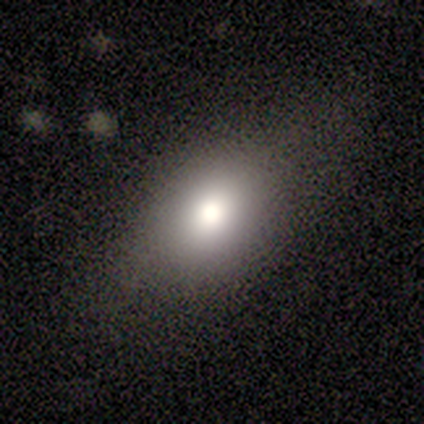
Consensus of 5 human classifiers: Q: Smooth or featured?
A: smooth (60%); runner-up: featured or disk (40%)
Q: How rounded?
A: in between (67%); runner-up: round (33%)
Q: Merging?
A: none (40%); tied with: minor disturbance (40%)